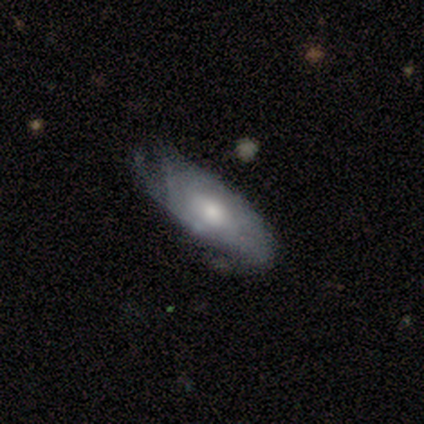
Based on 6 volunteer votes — Smooth or featured? smooth (67%)
How rounded? in between (75%)
Merging? none (50%)